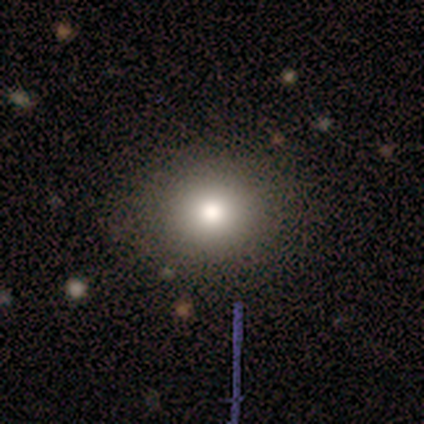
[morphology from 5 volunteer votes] smooth 60%, featured or disk 40%, star or artifact 0%. Down the decision tree: how rounded — round (100%); merging — none (80%).